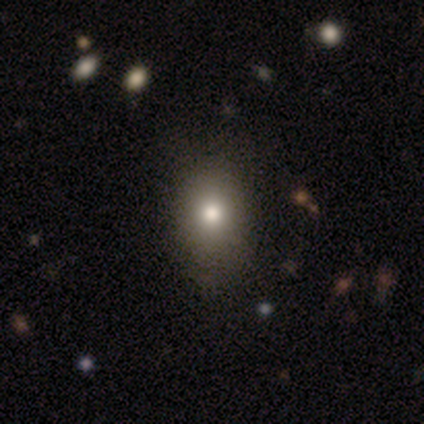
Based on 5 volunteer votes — This is clearly a smooth galaxy (100%). How rounded: clearly in between (80%). Merging: clearly none (80%).